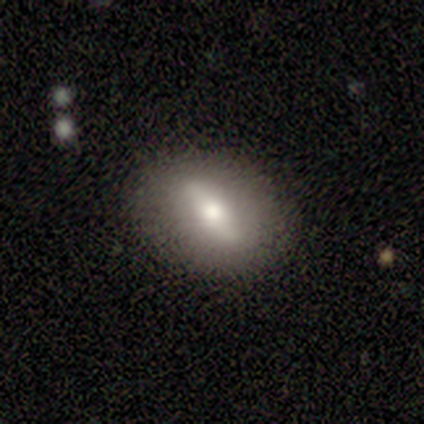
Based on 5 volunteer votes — featured or disk 60%, smooth 40%, star or artifact 0%. Down the decision tree: edge-on disk — no (100%); bar — strong (67%); spiral arms — no (67%); bulge size — moderate (67%); merging — none (100%).